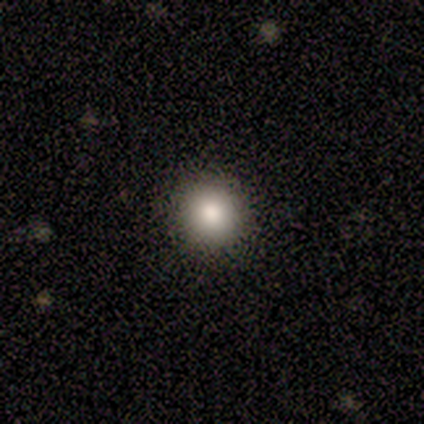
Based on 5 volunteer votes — Smooth or featured: smooth — 60% (featured or disk — 40%)
How rounded: round — 100%
Merging: none — 80% (major disturbance — 20%)